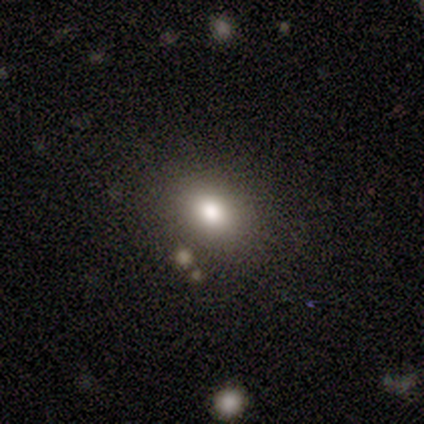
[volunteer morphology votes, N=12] Volunteers were most divided on "how rounded": in between: 67%, round: 33%, cigar-shaped: 0%. More confident: merging — none (90%); smooth or featured — smooth (75%).